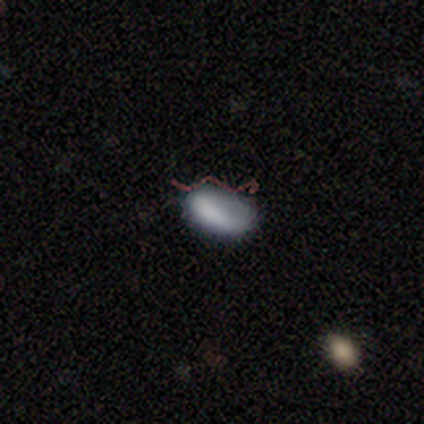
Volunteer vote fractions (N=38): Morphology: type=smooth (66%); roundness=in between (96%); merging=none (56%).